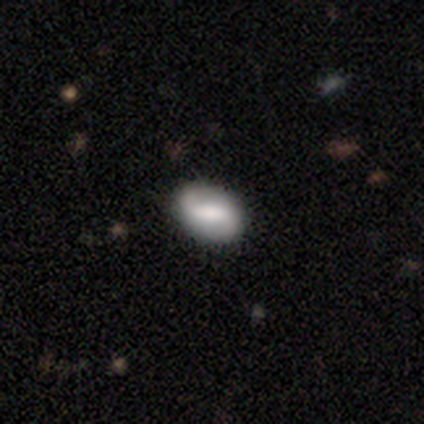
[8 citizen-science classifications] Smooth or featured?
  - featured or disk: 62% *
  - smooth: 38%
  - star or artifact: 0%
Edge-on disk?
  - no: 100% *
  - yes: 0%
Bar?
  - weak: 60% *
  - strong: 40%
  - no: 0%
Spiral arms?
  - yes: 80% *
  - no: 20%
Spiral winding?
  - loose: 50% *
  - tight: 25%
  - medium: 25%
Spiral arm count?
  - 1: 50% * (tied)
  - 2: 50% * (tied)
  - 3: 0%
  - 4: 0%
  - more than 4: 0%
  - can't tell: 0%
Bulge size?
  - moderate: 60% *
  - large: 20%
  - none: 20%
  - dominant: 0%
  - small: 0%
Merging?
  - none: 75% *
  - minor disturbance: 25%
  - major disturbance: 0%
  - merger: 0%